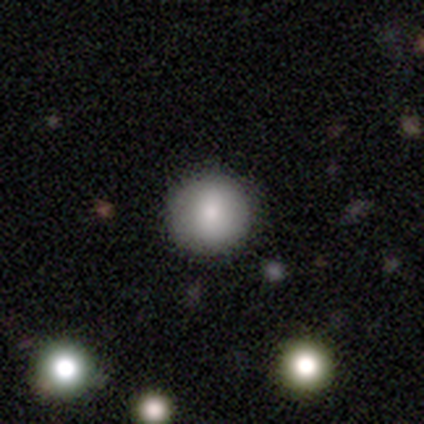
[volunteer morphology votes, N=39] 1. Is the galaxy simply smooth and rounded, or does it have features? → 82% smooth, 13% featured or disk, 5% star or artifact.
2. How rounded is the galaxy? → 97% round, 3% in between, 0% cigar-shaped.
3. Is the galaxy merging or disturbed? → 54% none, 5% minor disturbance, 5% merger, 0% major disturbance.